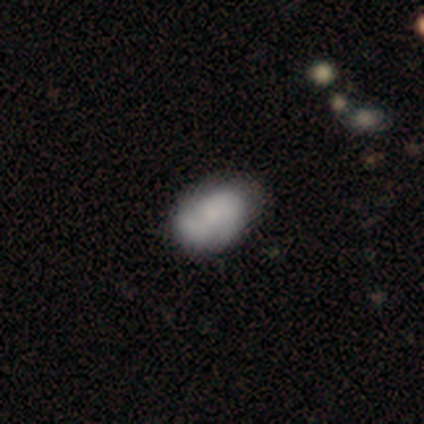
Smooth or featured? smooth (71%)
How rounded? in between (96%)
Merging? none (43%, tied with minor disturbance)